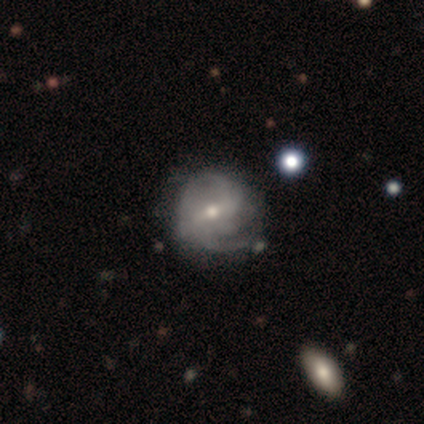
Smooth or featured? featured or disk (80%)
Edge-on disk? no (100%)
Bar? strong (50%, tied with weak)
Spiral arms? yes (75%)
Spiral winding? tight (33%, tied with medium and loose)
Spiral arm count? 2 (100%)
Bulge size? moderate (50%, tied with small)
Merging? none (80%)